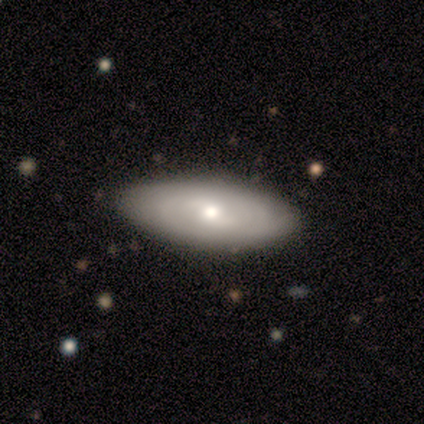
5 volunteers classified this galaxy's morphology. smooth 60%, featured or disk 40%, star or artifact 0%. Down the decision tree: how rounded — in between (67%); merging — none (100%).